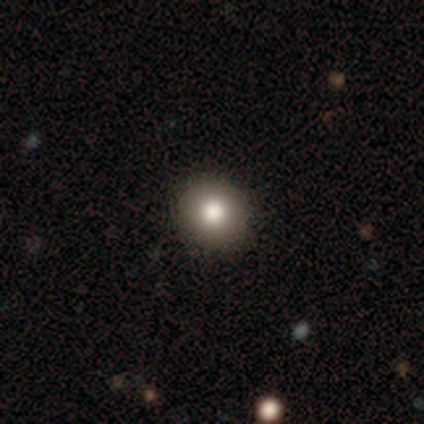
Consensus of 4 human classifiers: smooth 75%, star or artifact 25%, featured or disk 0%. Down the decision tree: how rounded — round (100%); merging — none (100%).